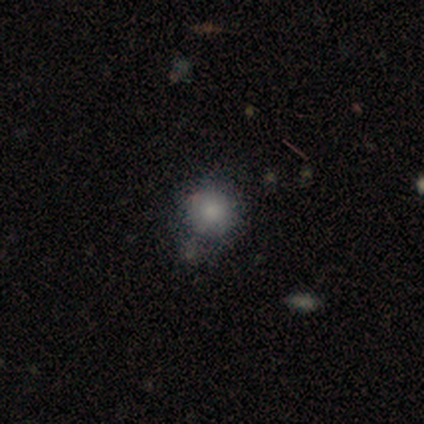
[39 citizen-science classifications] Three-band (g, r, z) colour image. It shows a smooth galaxy with no disk features (74%) that is round (90%). Merging: none (55%).